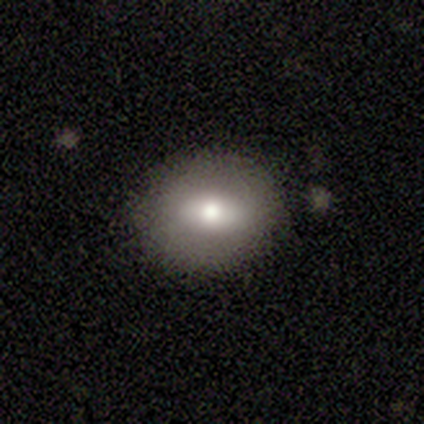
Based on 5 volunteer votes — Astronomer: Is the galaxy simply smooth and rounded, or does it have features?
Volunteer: smooth — 100%.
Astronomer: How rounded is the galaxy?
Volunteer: in between — 60% (runner-up: round, 40%).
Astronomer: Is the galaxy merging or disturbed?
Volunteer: none — 100%.